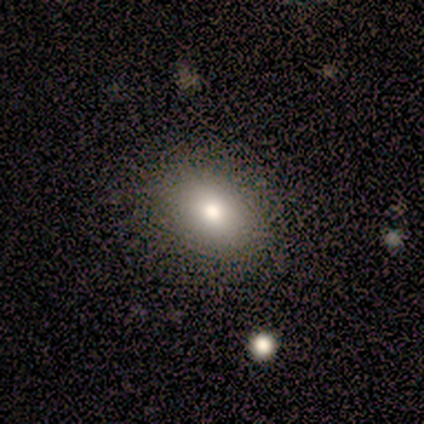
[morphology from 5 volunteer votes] Smooth or featured? 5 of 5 (100%) said smooth. How rounded? 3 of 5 (60%) said in between. Merging? 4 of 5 (80%) said none.